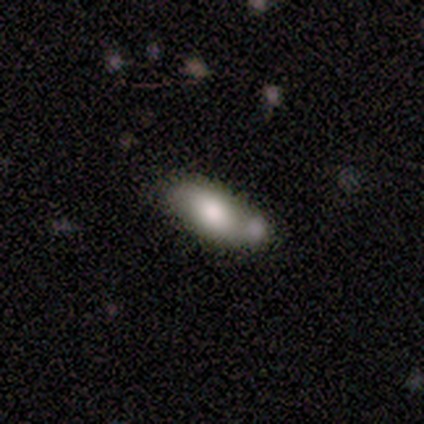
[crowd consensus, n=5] Smooth or featured? 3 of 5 (60%) said featured or disk. Edge-on disk? 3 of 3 (100%) said no. Bar? 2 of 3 (67%) said no. Spiral arms? 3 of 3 (100%) said yes. Spiral winding? 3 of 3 (100%) said loose. Spiral arm count? 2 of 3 (67%) said 2. Bulge size? 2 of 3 (67%) said large. Merging? 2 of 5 (40%, tied with merger) said none.